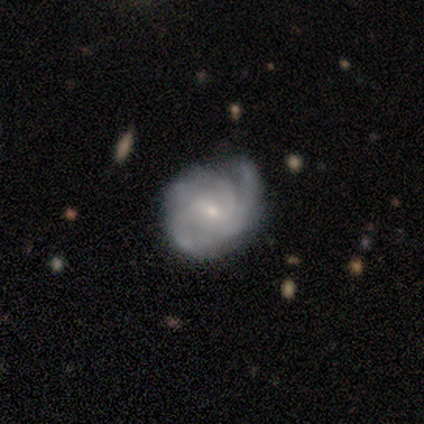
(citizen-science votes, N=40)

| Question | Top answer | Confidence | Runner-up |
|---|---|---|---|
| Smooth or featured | featured or disk | 88% | smooth (8%) |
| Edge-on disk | no | 100% | — |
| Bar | weak | 49% | no (43%) |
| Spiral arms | yes | 97% | no (3%) |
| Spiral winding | tight | 44% | medium (35%) |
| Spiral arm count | can't tell | 35% | 2 (29%) |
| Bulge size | small | 89% | moderate (11%) |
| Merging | none | 61% | minor disturbance (34%) |